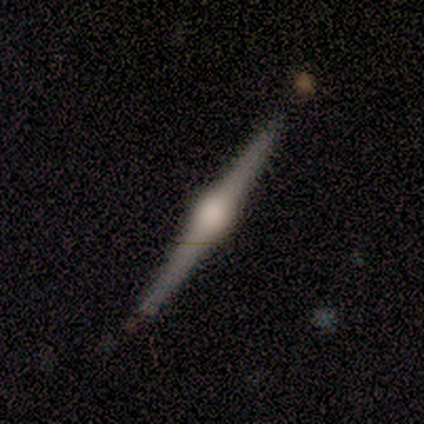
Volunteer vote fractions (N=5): featured or disk 80%, smooth 20%, star or artifact 0%. Down the decision tree: edge-on disk — yes (100%); edge-on bulge — rounded (100%); merging — none (100%).